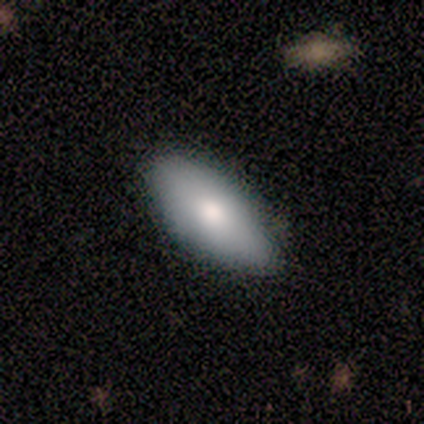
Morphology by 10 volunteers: This appears to be a smooth galaxy with no disk features (80%) that is in between round and cigar-shaped (100%). Merging: none (90%).